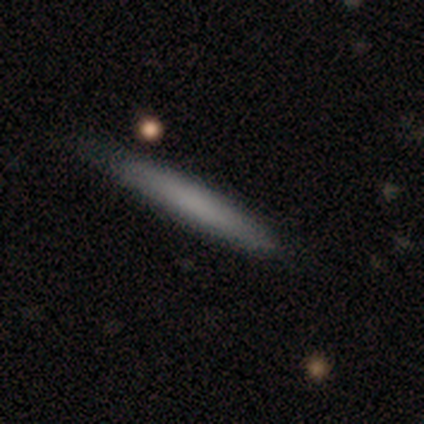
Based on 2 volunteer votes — This is clearly a smooth galaxy (100%). How rounded: clearly cigar-shaped (100%). Merging: clearly none (100%).